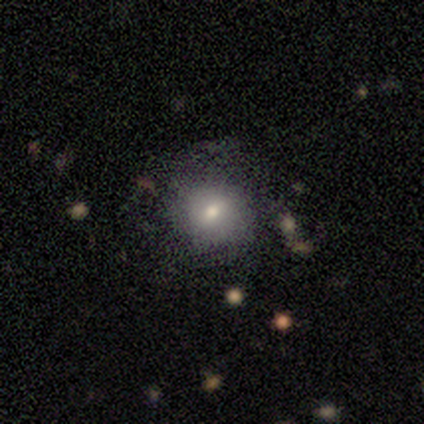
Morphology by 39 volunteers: smooth-or-featured: smooth: 69% | featured or disk: 28% | star or artifact: 3%
  how-rounded: round: 96% | cigar-shaped: 4% | in between: 0%
  merging: none: 79% | minor disturbance: 11% | major disturbance: 8% | merger: 3%